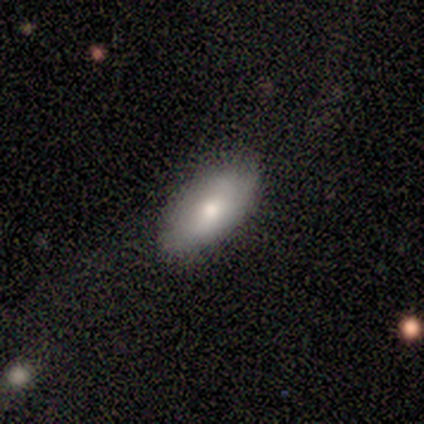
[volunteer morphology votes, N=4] A smooth galaxy with no disk features (75%) that is in between round and cigar-shaped (67%).

Vote fractions:
- Smooth or featured? smooth: 75% / star or artifact: 25% / featured or disk: 0%
- How rounded? in between: 67% / round: 33% / cigar-shaped: 0%
- Merging? none: 100% / minor disturbance: 0% / major disturbance: 0% / merger: 0%